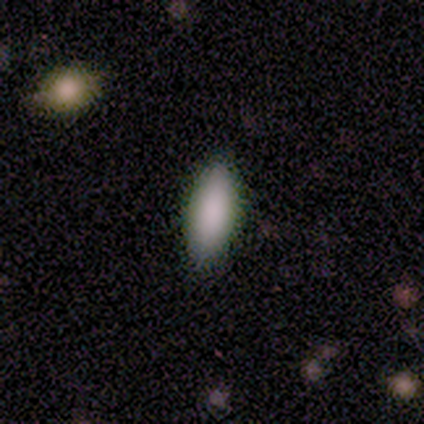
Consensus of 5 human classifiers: Smooth or featured?
  - smooth: 100% *
  - featured or disk: 0%
  - star or artifact: 0%
How rounded?
  - in between: 100% *
  - round: 0%
  - cigar-shaped: 0%
Merging?
  - none: 80% *
  - minor disturbance: 20%
  - major disturbance: 0%
  - merger: 0%